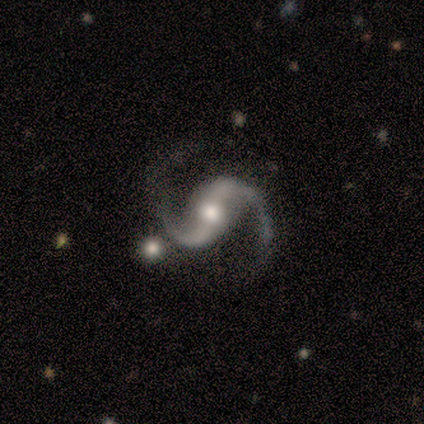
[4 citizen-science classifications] Smooth or featured? featured or disk (100%)
Edge-on disk? no (100%)
Bar? weak (50%)
Spiral arms? yes (100%)
Spiral winding? medium (75%)
Spiral arm count? 2 (100%)
Bulge size? moderate (75%)
Merging? none (50%)